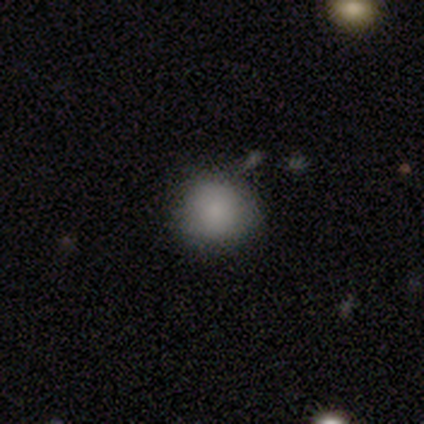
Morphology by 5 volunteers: This appears to be a smooth galaxy with no disk features (100%) that is round (100%). Merging: none (80%).